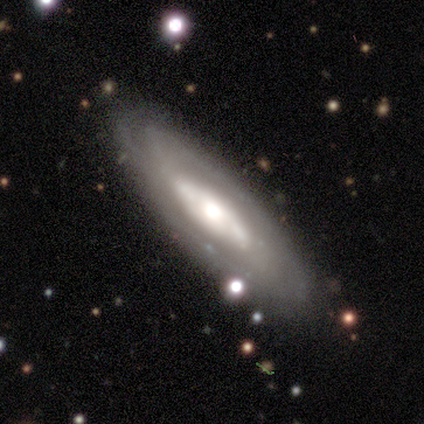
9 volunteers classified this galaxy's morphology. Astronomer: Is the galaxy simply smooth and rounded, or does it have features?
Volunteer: featured or disk — 67%.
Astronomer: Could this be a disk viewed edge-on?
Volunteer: no — 83%.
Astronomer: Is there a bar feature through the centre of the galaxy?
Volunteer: no — 60%.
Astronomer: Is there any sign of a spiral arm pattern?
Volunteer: yes — 80%.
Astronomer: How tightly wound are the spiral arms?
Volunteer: tight — 75%.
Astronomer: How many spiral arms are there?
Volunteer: can't tell — 100%.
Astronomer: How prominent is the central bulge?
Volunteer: large — 80%.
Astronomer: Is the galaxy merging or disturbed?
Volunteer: none — 100%.